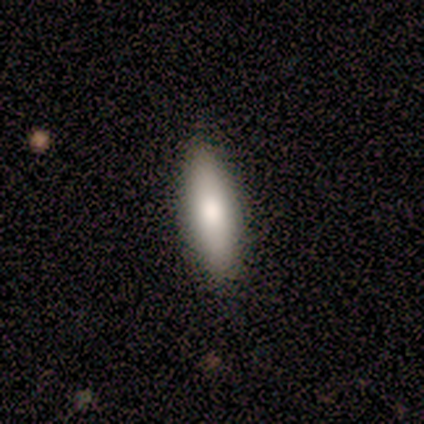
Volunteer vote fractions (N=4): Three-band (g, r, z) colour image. It shows a smooth galaxy with no disk features (100%) that is in between round and cigar-shaped (50%, tied with cigar-shaped). Merging: none (100%).